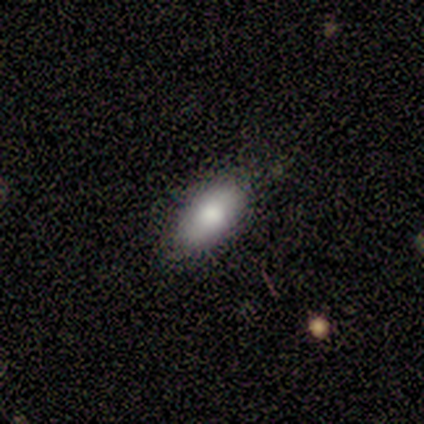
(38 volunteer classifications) Smooth or featured? 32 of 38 (84%) said smooth. How rounded? 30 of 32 (94%) said in between. Merging? 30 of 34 (88%) said none.